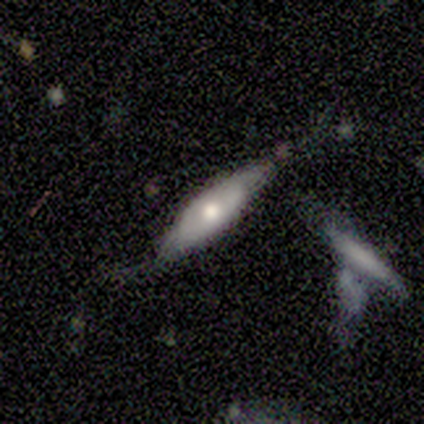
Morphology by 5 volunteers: Q: Smooth or featured?
A: featured or disk (80%); runner-up: smooth (20%)
Q: Edge-on disk?
A: no (75%); runner-up: yes (25%)
Q: Bar?
A: no (67%); runner-up: strong (33%)
Q: Spiral arms?
A: no (67%); runner-up: yes (33%)
Q: Bulge size?
A: moderate (67%); runner-up: small (33%)
Q: Merging?
A: none (60%); runner-up: minor disturbance (40%)